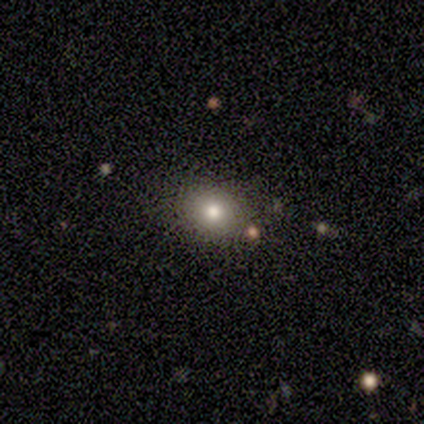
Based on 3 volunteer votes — smooth 67%, star or artifact 33%, featured or disk 0%. Down the decision tree: how rounded — round (50%, tied with in between); merging — none (100%).